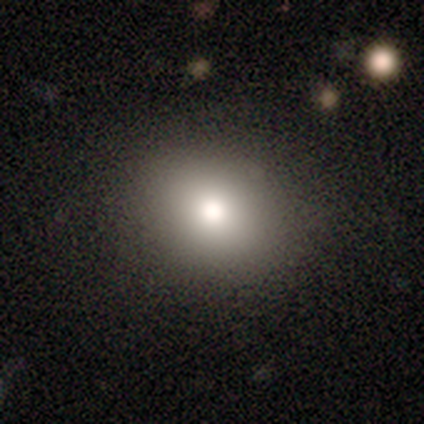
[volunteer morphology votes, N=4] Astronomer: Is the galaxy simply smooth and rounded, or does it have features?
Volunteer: smooth — 50%, tied with featured or disk at 50%.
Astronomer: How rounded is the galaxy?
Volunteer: round — 50%, tied with in between at 50%.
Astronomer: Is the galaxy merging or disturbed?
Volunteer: none — 100%.